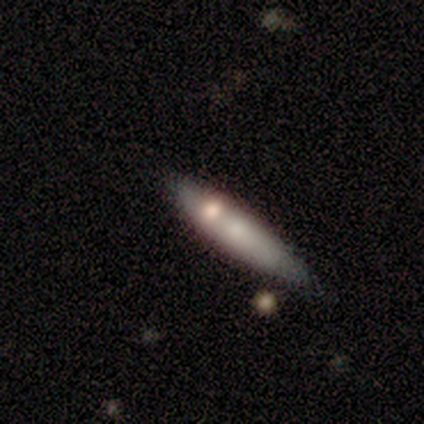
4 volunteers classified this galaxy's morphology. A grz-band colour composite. It shows a smooth galaxy with no disk features (50%) that is cigar-shaped (100%). Merging: none (67%).